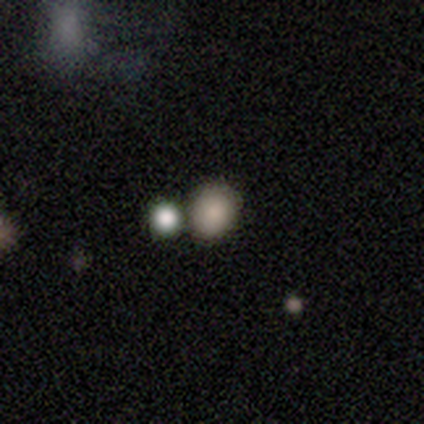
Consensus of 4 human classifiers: smooth_or_featured: smooth (p=0.75) [alt: star or artifact p=0.25]
how_rounded: round (p=0.67) [alt: in between p=0.33]
merging: none (p=0.33) [tied with: minor disturbance p=0.33, merger p=0.33]